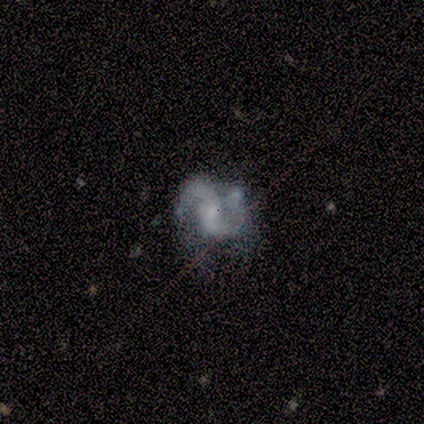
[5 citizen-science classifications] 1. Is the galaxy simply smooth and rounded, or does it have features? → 100% featured or disk, 0% smooth, 0% star or artifact.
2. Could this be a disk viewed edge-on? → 100% no, 0% yes.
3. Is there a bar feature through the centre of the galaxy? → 80% no, 20% weak, 0% strong.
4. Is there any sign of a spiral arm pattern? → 100% yes, 0% no.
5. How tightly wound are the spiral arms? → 40% medium (tied), 40% loose (tied), 20% tight.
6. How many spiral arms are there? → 100% 2, 0% 1, 0% 3, 0% 4, 0% more than 4, 0% can't tell.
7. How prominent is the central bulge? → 60% moderate, 20% small, 20% none, 0% dominant, 0% large.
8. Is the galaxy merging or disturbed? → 60% none, 20% minor disturbance, 20% merger, 0% major disturbance.